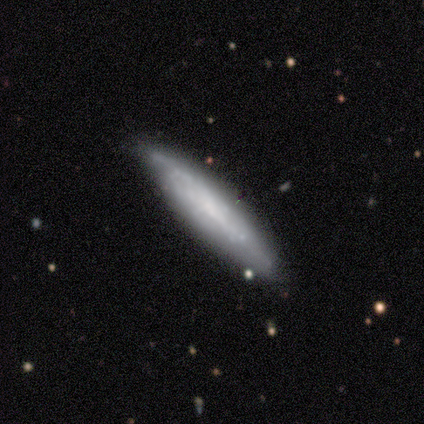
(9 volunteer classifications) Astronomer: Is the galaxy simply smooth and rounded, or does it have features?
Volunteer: smooth — 56% (runner-up: featured or disk, 44%).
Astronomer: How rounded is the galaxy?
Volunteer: in between — 60% (runner-up: cigar-shaped, 40%).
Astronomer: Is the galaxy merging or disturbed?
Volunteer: none — 56% (runner-up: minor disturbance, 33%).